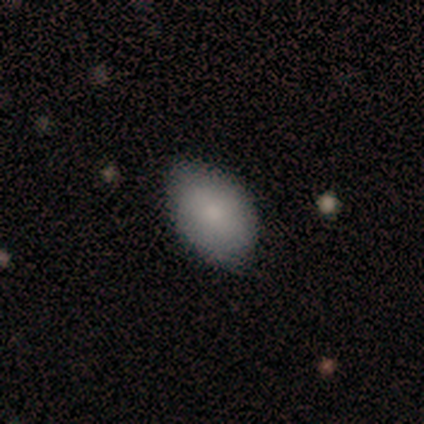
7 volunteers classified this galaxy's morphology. A smooth galaxy with no disk features (86%) that is in between round and cigar-shaped (100%).

Vote fractions:
- Smooth or featured? smooth: 86% / featured or disk: 14% / star or artifact: 0%
- How rounded? in between: 100% / round: 0% / cigar-shaped: 0%
- Merging? none: 57% / minor disturbance: 43% / major disturbance: 0% / merger: 0%